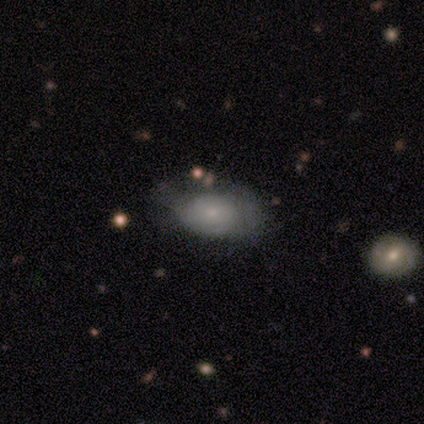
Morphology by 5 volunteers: This appears to be a smooth galaxy with no disk features (100%) that is in between round and cigar-shaped (80%). Merging: minor disturbance (60%).